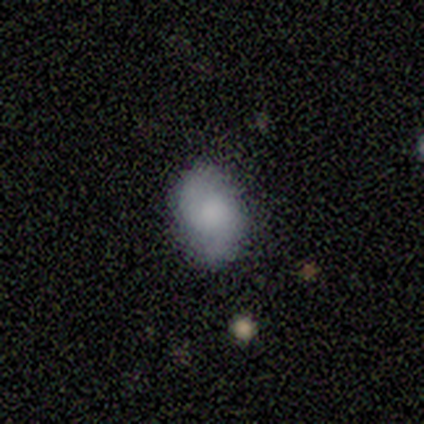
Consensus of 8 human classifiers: Smooth or featured? smooth (50%, tied with featured or disk)
How rounded? in between (75%)
Merging? none (75%)